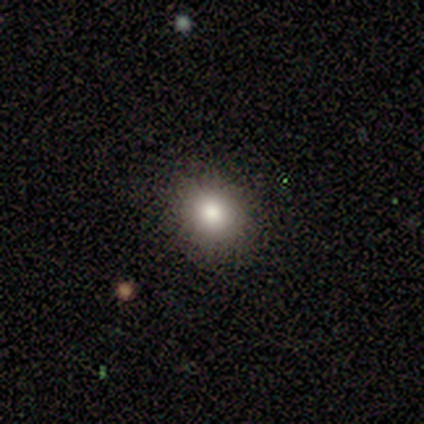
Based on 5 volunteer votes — A smooth galaxy with no disk features (100%) that is round (100%).

Vote fractions:
- Smooth or featured? smooth: 100% / featured or disk: 0% / star or artifact: 0%
- How rounded? round: 100% / in between: 0% / cigar-shaped: 0%
- Merging? none: 100% / minor disturbance: 0% / major disturbance: 0% / merger: 0%